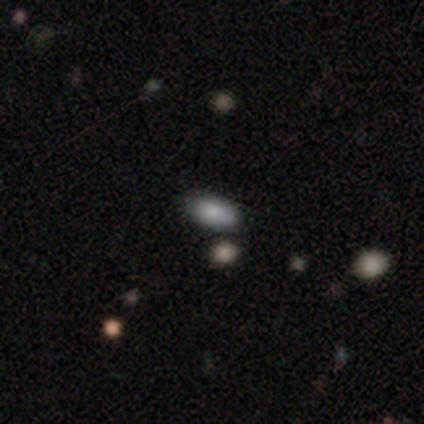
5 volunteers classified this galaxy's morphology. smooth 80%, featured or disk 20%, star or artifact 0%. Down the decision tree: how rounded — in between (100%); merging — none (60%).